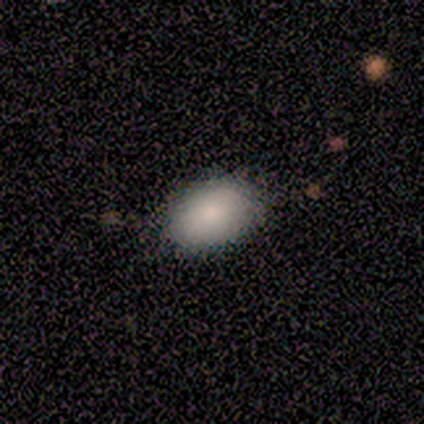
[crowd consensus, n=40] A smooth galaxy with no disk features (82%) that is in between round and cigar-shaped (91%).

Vote fractions:
- Smooth or featured? smooth: 82% / featured or disk: 15% / star or artifact: 2%
- How rounded? in between: 91% / round: 9% / cigar-shaped: 0%
- Merging? none: 62% / minor disturbance: 8% / merger: 3% / major disturbance: 0%